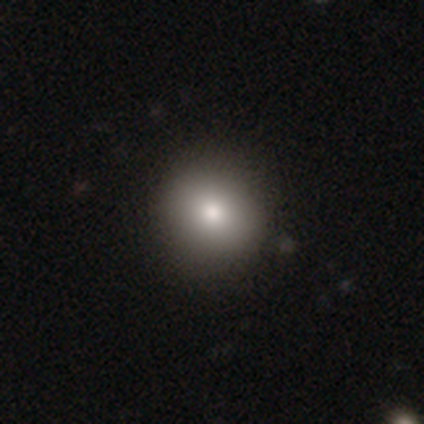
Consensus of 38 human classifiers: smooth 84%, featured or disk 8%, star or artifact 8%. Down the decision tree: how rounded — round (94%); merging — none (77%).